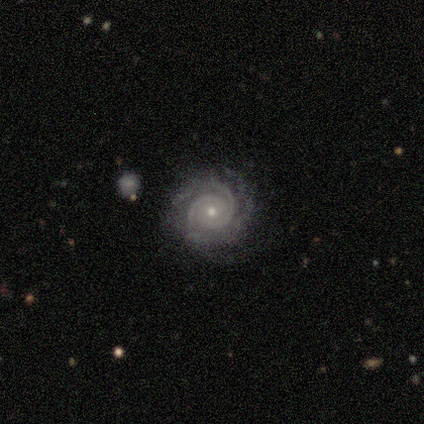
smooth_or_featured: featured or disk (p=1.00)
disk_edge_on: no (p=1.00)
bar: strong (p=0.40) [tied with: no p=0.40]
has_spiral_arms: yes (p=1.00)
spiral_winding: tight (p=1.00)
spiral_arm_count: 2 (p=0.60) [alt: 3 p=0.20]
bulge_size: small (p=0.80) [alt: moderate p=0.20]
merging: none (p=1.00)